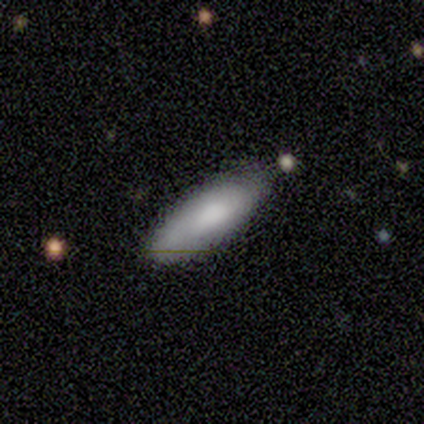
smooth-or-featured: smooth: 80% | featured or disk: 20% | star or artifact: 0%
  how-rounded: in between: 50% (tied) | cigar-shaped: 50% (tied) | round: 0%
  merging: none: 100% | minor disturbance: 0% | major disturbance: 0% | merger: 0%